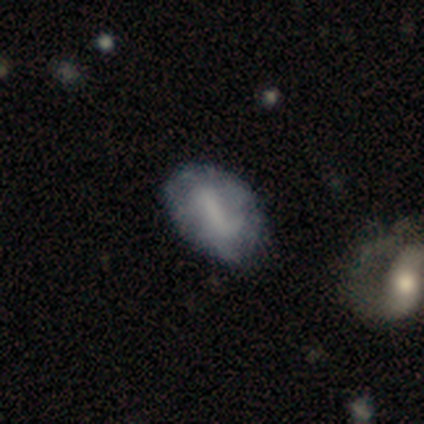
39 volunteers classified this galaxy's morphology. Smooth or featured? featured or disk (49%)
Edge-on disk? no (100%)
Bar? strong (47%)
Spiral arms? yes (58%)
Spiral winding? loose (55%)
Spiral arm count? 2 (45%)
Bulge size? none (68%)
Merging? none (54%)